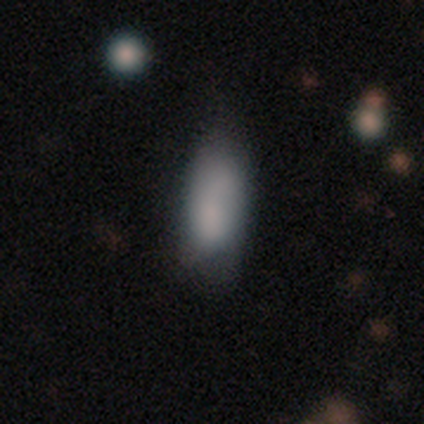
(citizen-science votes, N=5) This is clearly a smooth galaxy (100%). How rounded: clearly in between (100%). Merging: marginally none (40%, tied with minor disturbance).